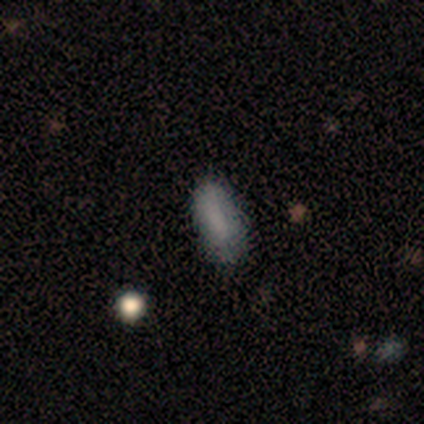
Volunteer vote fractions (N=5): Smooth or featured? smooth (100%)
How rounded? in between (80%)
Merging? none (80%)